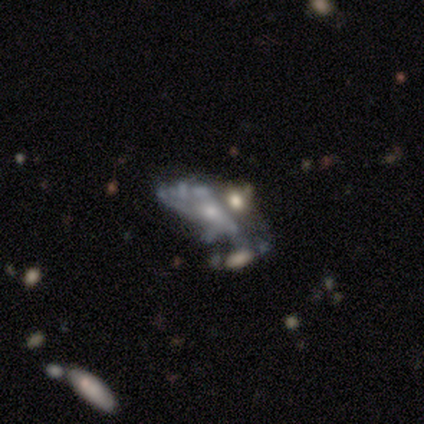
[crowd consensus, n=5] Smooth or featured? 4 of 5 (80%) said featured or disk. Edge-on disk? 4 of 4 (100%) said no. Bar? 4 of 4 (100%) said no. Spiral arms? 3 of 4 (75%) said no. Bulge size? 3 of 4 (75%) said small. Merging? 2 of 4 (50%) said merger.